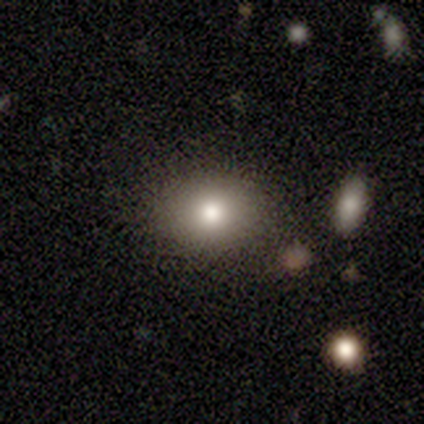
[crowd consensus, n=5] This is clearly a smooth galaxy (100%). How rounded: clearly in between (80%). Merging: clearly none (100%).